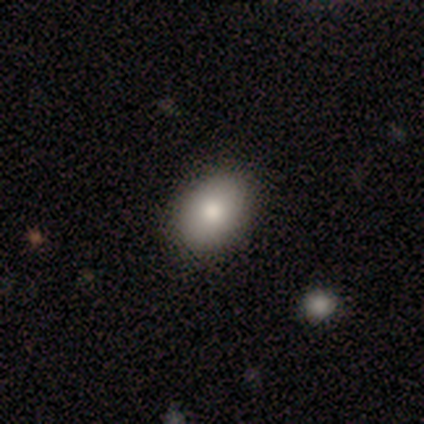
A smooth galaxy with no disk features (100%) that is in between round and cigar-shaped (75%). Merging: none (75%).